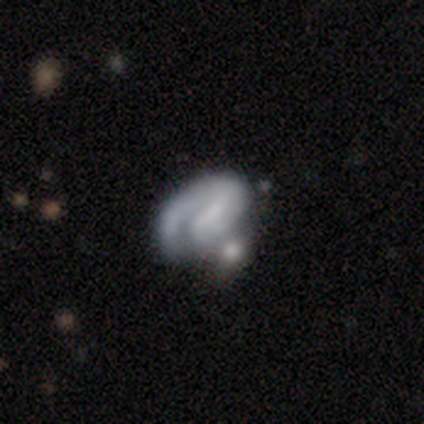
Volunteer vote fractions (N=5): Q: Smooth or featured?
A: featured or disk (60%); runner-up: star or artifact (40%)
Q: Edge-on disk?
A: no (100%)
Q: Bar?
A: strong (33%); tied with: weak (33%); no (33%)
Q: Spiral arms?
A: yes (67%); runner-up: no (33%)
Q: Spiral winding?
A: tight (50%); tied with: loose (50%)
Q: Spiral arm count?
A: 1 (100%)
Q: Bulge size?
A: large (33%); tied with: small (33%); none (33%)
Q: Merging?
A: merger (67%); runner-up: none (33%)